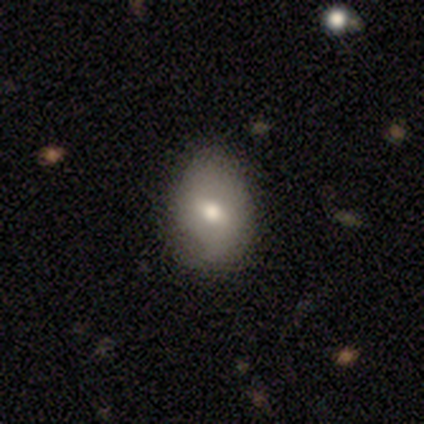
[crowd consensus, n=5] Morphology: type=featured or disk (60%); edge-on=no (67%); bar=weak (100%); spiral arms=yes (50%, tied with no); winding=medium (100%); arm count=4 (100%); bulge=small (100%); merging=minor disturbance (40%, tied with major disturbance).